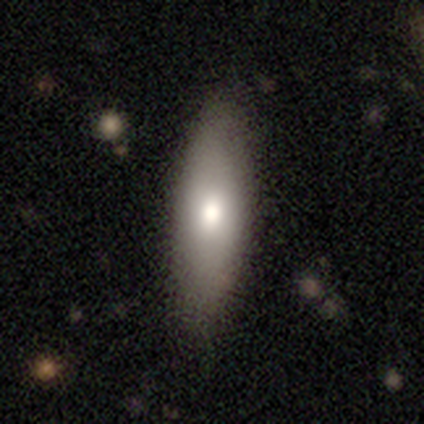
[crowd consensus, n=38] This appears to be a smooth galaxy with no disk features (74%) that is in between round and cigar-shaped (61%). Merging: none (76%).